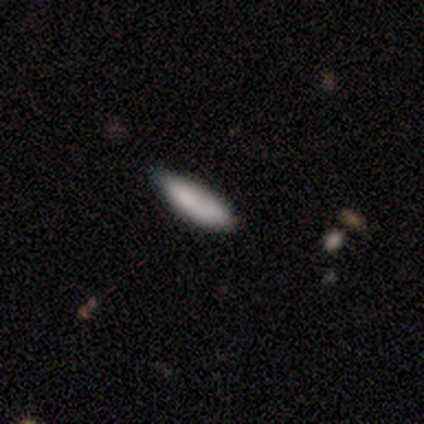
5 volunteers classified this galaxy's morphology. Smooth or featured: smooth — 100%
How rounded: in between — 60% (cigar-shaped — 40%)
Merging: none — 60% (minor disturbance — 20%)